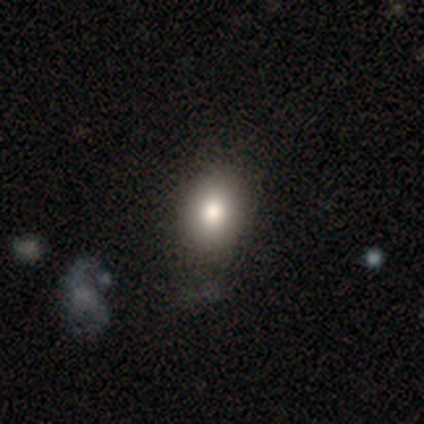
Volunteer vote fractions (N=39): This appears to be a smooth galaxy with no disk features (74%) that is in between round and cigar-shaped (69%). Merging: none (71%).